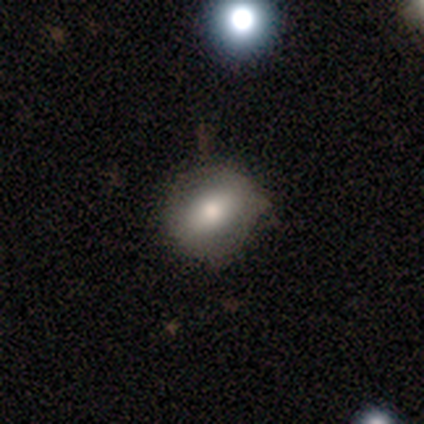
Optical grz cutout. It shows a smooth galaxy with no disk features (90%) that is in between round and cigar-shaped (67%). Merging: none (89%).